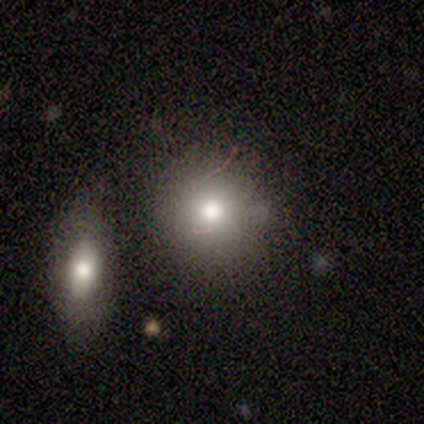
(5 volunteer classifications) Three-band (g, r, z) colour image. It shows a smooth galaxy with no disk features (60%) that is round (100%). Merging: merger (60%).